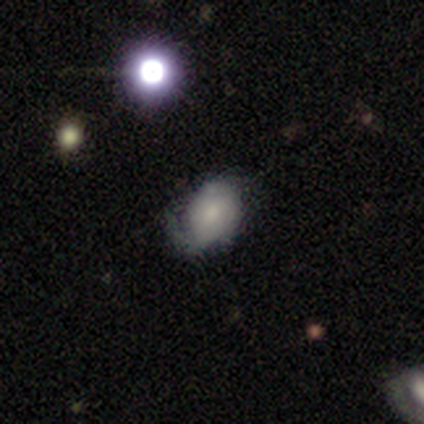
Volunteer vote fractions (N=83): Smooth or featured?
  - featured or disk: 57% *
  - smooth: 39%
  - star or artifact: 5%
Edge-on disk?
  - no: 98% *
  - yes: 2%
Bar?
  - no: 78% *
  - weak: 15%
  - strong: 7%
Spiral arms?
  - yes: 76% *
  - no: 24%
Spiral winding?
  - tight: 49% *
  - medium: 37%
  - loose: 14%
Spiral arm count?
  - 1: 54% *
  - 2: 29%
  - can't tell: 11%
  - 3: 6%
  - 4: 0%
  - more than 4: 0%
Bulge size?
  - moderate: 46% *
  - small: 37%
  - none: 9%
  - dominant: 4%
  - large: 4%
Merging?
  - none: 39% *
  - minor disturbance: 37%
  - major disturbance: 24%
  - merger: 0%